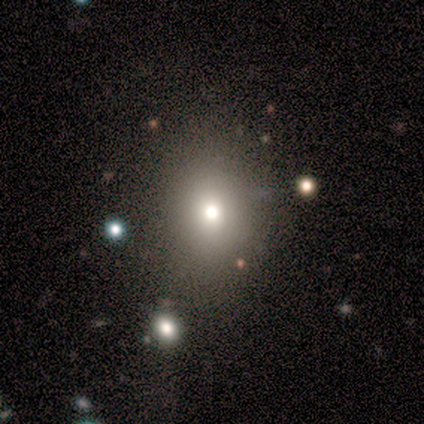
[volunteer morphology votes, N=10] This is possibly a smooth galaxy (50%). How rounded: likely round (60%). Merging: likely none (71%).